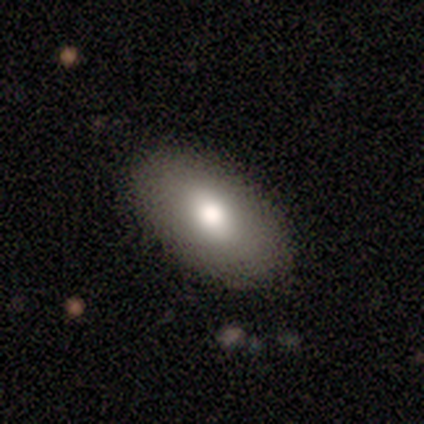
smooth-or-featured: featured or disk: 62% | smooth: 25% | star or artifact: 12%
  disk-edge-on: no: 60% | yes: 40%
    bar: no: 67% | weak: 33% | strong: 0%
    has-spiral-arms: no: 100% | yes: 0%
    bulge-size: moderate: 67% | large: 33% | dominant: 0% | small: 0% | none: 0%
  merging: none: 86% | minor disturbance: 14% | major disturbance: 0% | merger: 0%